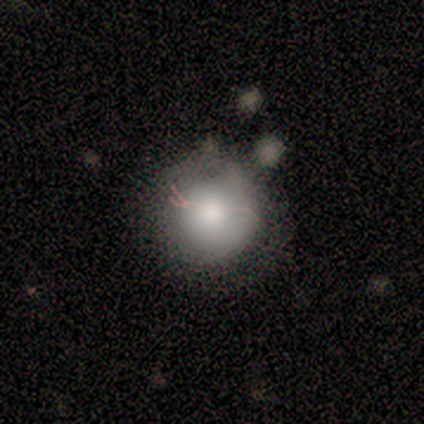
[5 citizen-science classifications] Q: Smooth or featured?
A: smooth (100%)
Q: How rounded?
A: round (100%)
Q: Merging?
A: none (80%); runner-up: minor disturbance (20%)